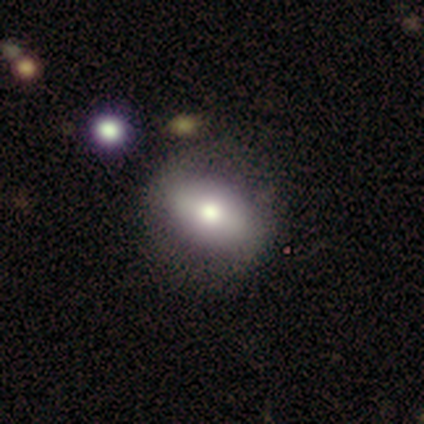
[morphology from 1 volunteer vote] A smooth galaxy with no disk features (100%) that is round (100%). Merging: none (100%).